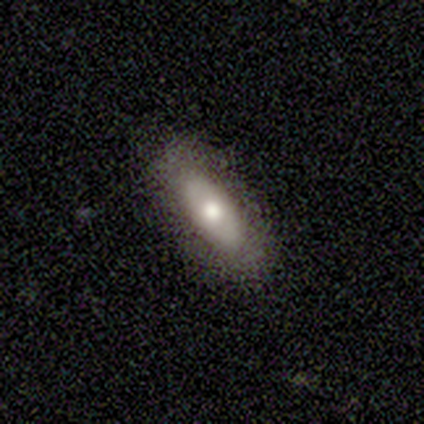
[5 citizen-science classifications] Smooth or featured? 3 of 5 (60%) said smooth. How rounded? 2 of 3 (67%) said in between. Merging? 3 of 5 (60%) said none.